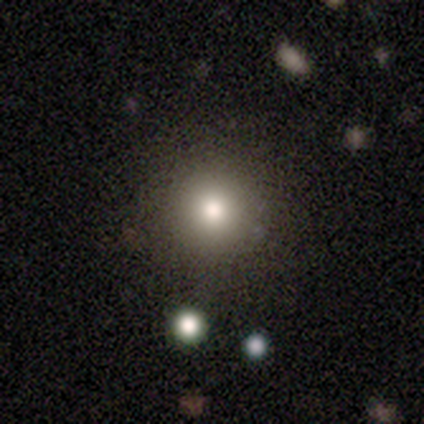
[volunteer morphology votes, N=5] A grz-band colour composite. It shows a smooth galaxy with no disk features (80%) that is round (75%). Merging: none (100%).